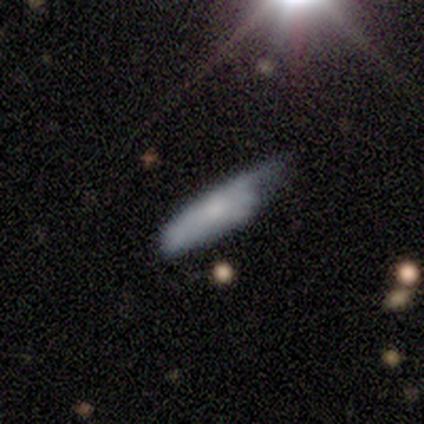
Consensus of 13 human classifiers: Q: Smooth or featured?
A: smooth (62%); runner-up: featured or disk (38%)
Q: How rounded?
A: cigar-shaped (75%); runner-up: in between (25%)
Q: Merging?
A: minor disturbance (38%); tied with: major disturbance (38%)